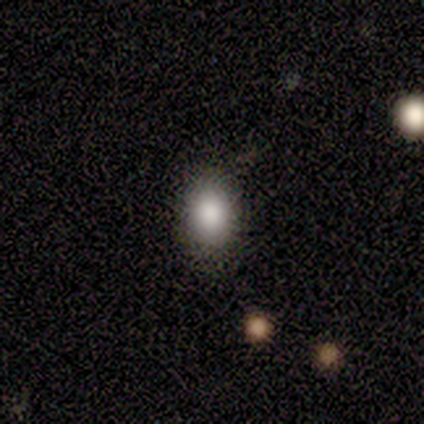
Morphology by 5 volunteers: smooth-or-featured: smooth: 60% | star or artifact: 40% | featured or disk: 0%
  how-rounded: in between: 100% | round: 0% | cigar-shaped: 0%
  merging: none: 67% | minor disturbance: 33% | major disturbance: 0% | merger: 0%